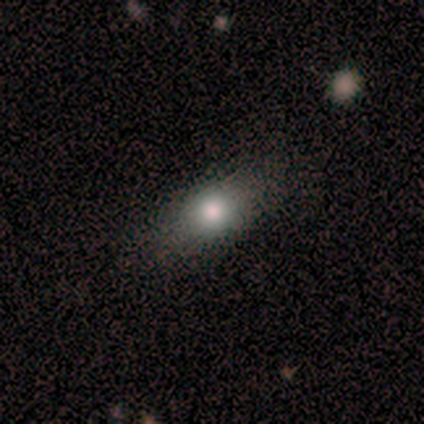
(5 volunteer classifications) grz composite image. It shows a smooth galaxy with no disk features (100%) that is in between round and cigar-shaped (60%). Merging: none (100%).